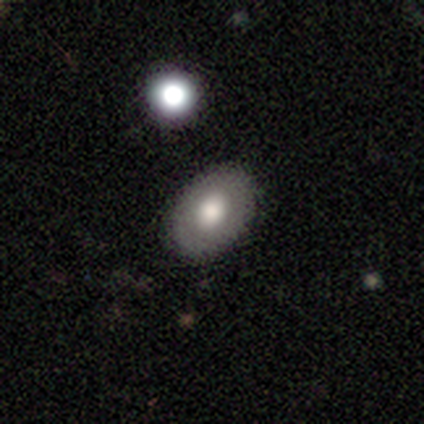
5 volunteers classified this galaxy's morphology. smooth_or_featured: smooth (p=0.60) [alt: featured or disk p=0.40]
how_rounded: in between (p=0.67) [alt: round p=0.33]
merging: none (p=1.00)